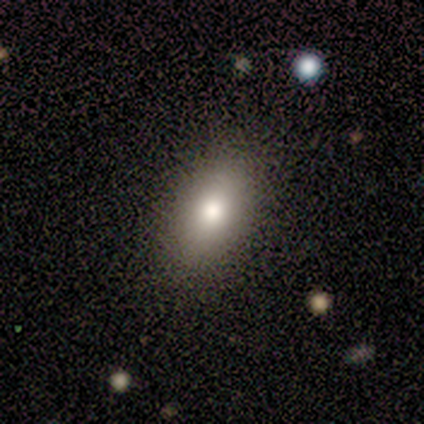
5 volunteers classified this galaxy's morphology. smooth 80%, featured or disk 20%, star or artifact 0%. Down the decision tree: how rounded — in between (100%); merging — none (80%).